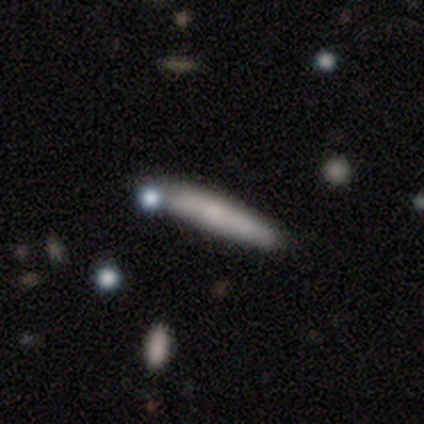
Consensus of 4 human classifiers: smooth-or-featured: smooth: 75% | featured or disk: 25% | star or artifact: 0%
  how-rounded: cigar-shaped: 67% | in between: 33% | round: 0%
  merging: none: 75% | minor disturbance: 25% | major disturbance: 0% | merger: 0%